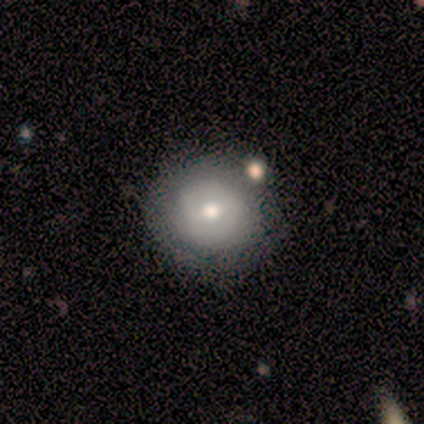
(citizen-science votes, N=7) Smooth or featured?
  - smooth: 86% *
  - featured or disk: 14%
  - star or artifact: 0%
How rounded?
  - round: 100% *
  - in between: 0%
  - cigar-shaped: 0%
Merging?
  - none: 100% *
  - minor disturbance: 0%
  - major disturbance: 0%
  - merger: 0%